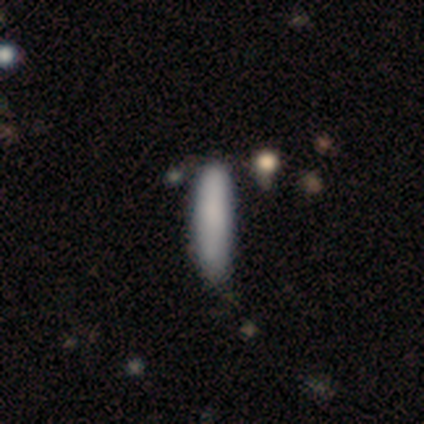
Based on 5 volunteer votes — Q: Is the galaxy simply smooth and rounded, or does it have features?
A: smooth — 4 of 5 (80%).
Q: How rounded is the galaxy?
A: cigar-shaped — 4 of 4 (100%).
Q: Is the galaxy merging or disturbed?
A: none — 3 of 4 (75%).